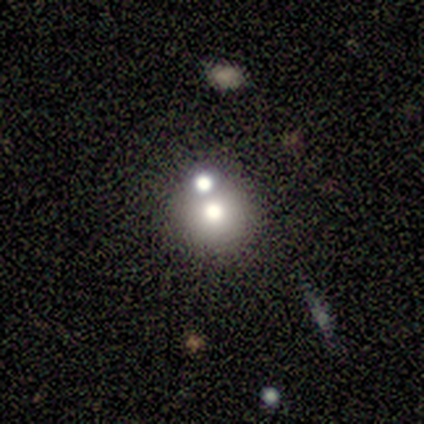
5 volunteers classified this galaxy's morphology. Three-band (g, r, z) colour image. It shows a smooth galaxy with no disk features (100%) that is round (100%). Merging: merger (60%).